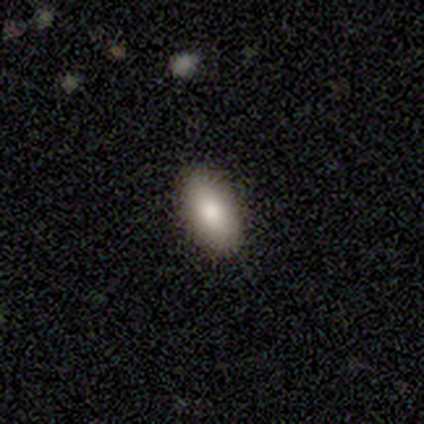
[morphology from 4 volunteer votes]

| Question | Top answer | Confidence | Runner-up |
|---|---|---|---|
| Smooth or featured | smooth | 100% | — |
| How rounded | in between | 75% | cigar-shaped (25%) |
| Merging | none | 100% | — |